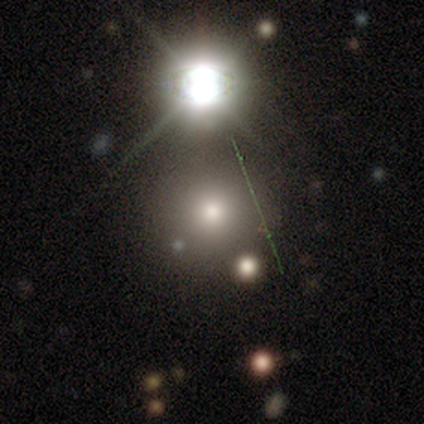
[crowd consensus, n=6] This is possibly a smooth galaxy (50%, tied with star or artifact). How rounded: clearly round (100%). Merging: marginally none (33%, tied with minor disturbance and merger).